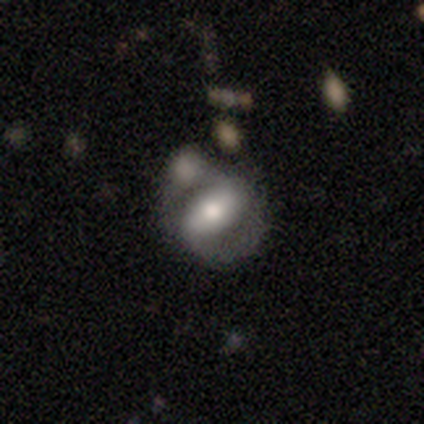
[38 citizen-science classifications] smooth-or-featured: featured or disk: 87% | smooth: 13% | star or artifact: 0%
  disk-edge-on: no: 94% | yes: 6%
    bar: strong: 65% | weak: 26% | no: 10%
    has-spiral-arms: yes: 87% | no: 13%
      spiral-winding: medium: 52% | tight: 26% | loose: 22%
      spiral-arm-count: 2: 89% | 1: 4% | more than 4: 4% | can't tell: 4% | 3: 0% | 4: 0%
    bulge-size: moderate: 58% | large: 29% | small: 13% | dominant: 0% | none: 0%
  merging: none: 47% | minor disturbance: 26% | merger: 16% | major disturbance: 11%